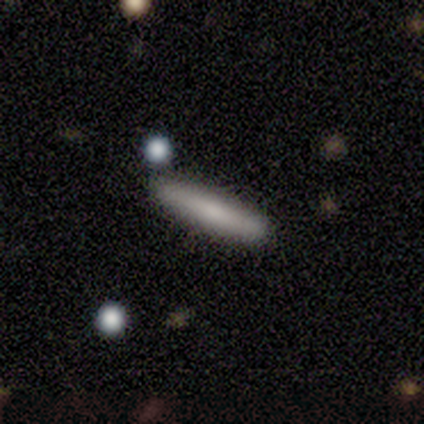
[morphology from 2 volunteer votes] Volunteers were most divided on "smooth or featured" (2-way tie): smooth: 50%, featured or disk: 50%, star or artifact: 0%. More confident: how rounded — cigar-shaped (100%); merging — none (100%).